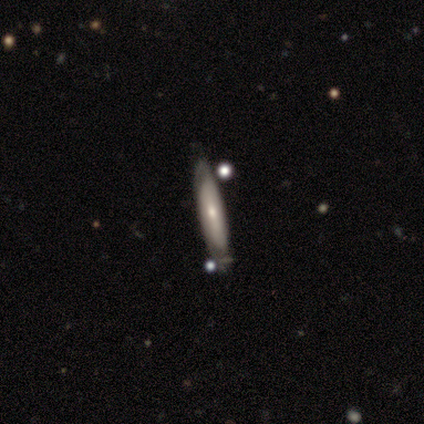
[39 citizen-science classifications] Smooth or featured?
  - featured or disk: 67% *
  - smooth: 28%
  - star or artifact: 5%
Edge-on disk?
  - yes: 65% *
  - no: 35%
Edge-on bulge?
  - rounded: 53% *
  - none: 41%
  - boxy: 6%
Merging?
  - none: 73% *
  - minor disturbance: 16%
  - merger: 8%
  - major disturbance: 3%